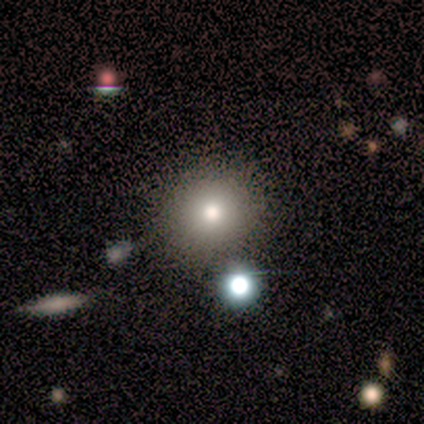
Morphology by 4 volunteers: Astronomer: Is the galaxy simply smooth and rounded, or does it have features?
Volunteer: smooth — 75%.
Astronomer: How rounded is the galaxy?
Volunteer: round — 67%.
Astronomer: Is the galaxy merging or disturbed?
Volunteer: none — 100%.